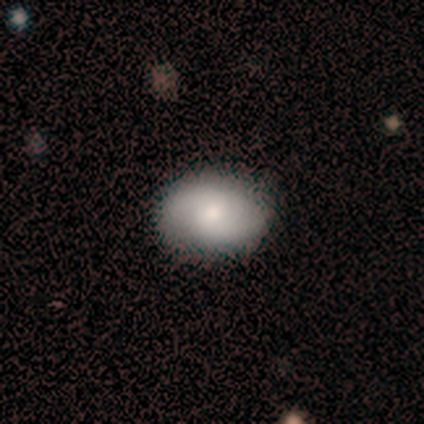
Morphology: type=smooth (60%); roundness=in between (67%); merging=none (100%).